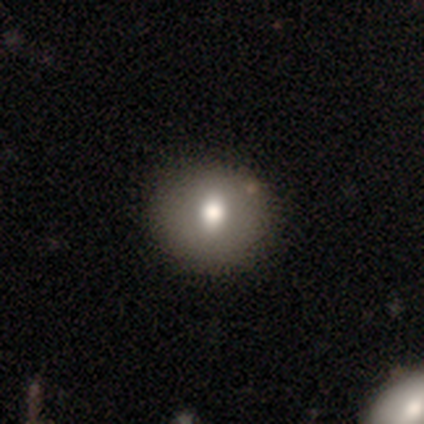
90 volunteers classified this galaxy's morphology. smooth 69%, featured or disk 20%, star or artifact 11%. Down the decision tree: how rounded — round (81%); merging — none (89%).